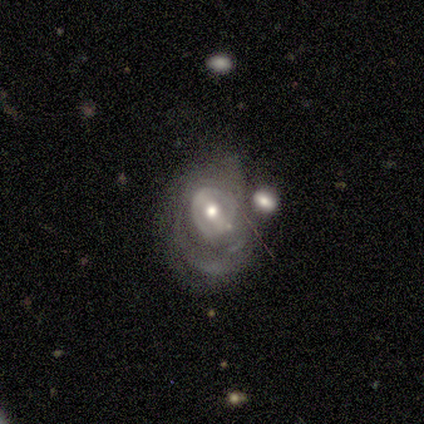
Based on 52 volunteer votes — This appears to be a featured or disk galaxy (73%) with a weak bar (41%), tight (70%) spiral arms (54%) and a moderate central bulge (81%). Merging: minor disturbance (35%).